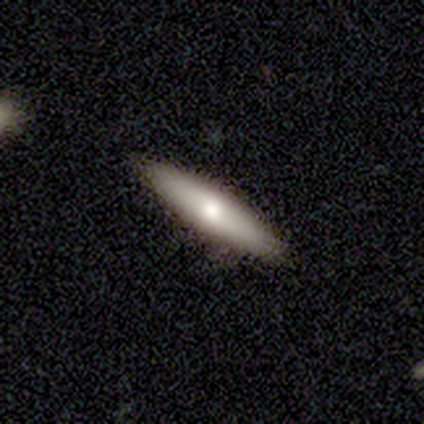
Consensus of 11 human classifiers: Volunteers were most divided on "smooth or featured": smooth: 55%, featured or disk: 45%, star or artifact: 0%. More confident: merging — none (100%); how rounded — cigar-shaped (67%).